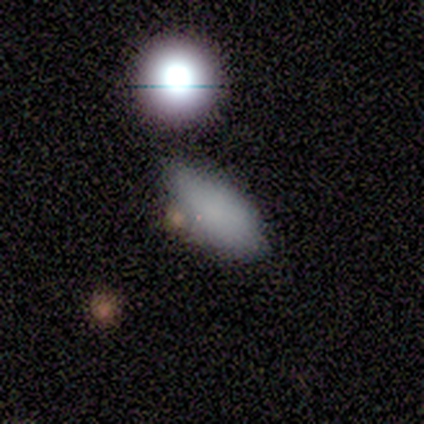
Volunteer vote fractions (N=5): Q: Smooth or featured?
A: smooth (60%); runner-up: featured or disk (20%)
Q: How rounded?
A: in between (100%)
Q: Merging?
A: none (75%); runner-up: minor disturbance (25%)